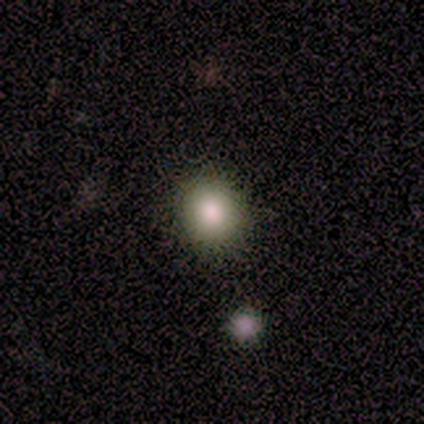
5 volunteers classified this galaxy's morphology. A smooth galaxy with no disk features (80%) that is round (75%).

Vote fractions:
- Smooth or featured? smooth: 80% / star or artifact: 20% / featured or disk: 0%
- How rounded? round: 75% / in between: 25% / cigar-shaped: 0%
- Merging? none: 100% / minor disturbance: 0% / major disturbance: 0% / merger: 0%